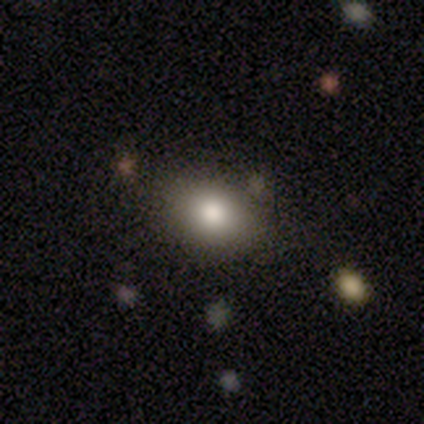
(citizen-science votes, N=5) Smooth or featured: smooth — 60% (featured or disk — 20%)
How rounded: in between — 100%
Merging: none — 100%